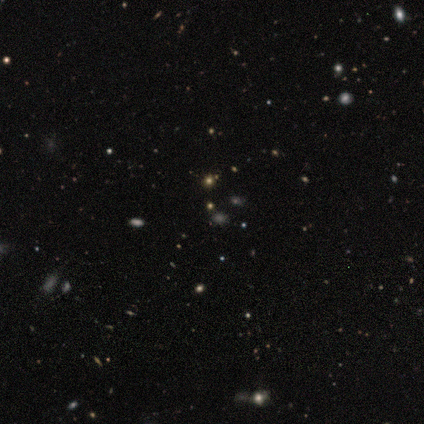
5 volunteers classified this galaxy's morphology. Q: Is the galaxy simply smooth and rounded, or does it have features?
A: star or artifact — 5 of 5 (100%).